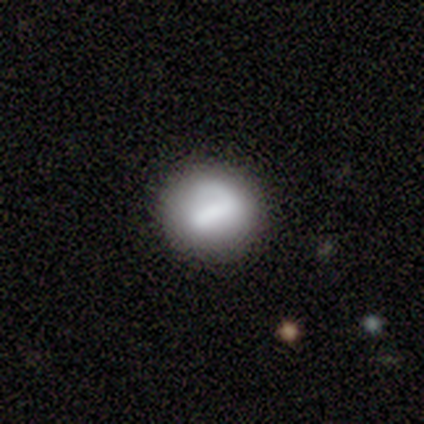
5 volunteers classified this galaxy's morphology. smooth 80%, featured or disk 20%, star or artifact 0%. Down the decision tree: how rounded — round (75%); merging — none (80%).